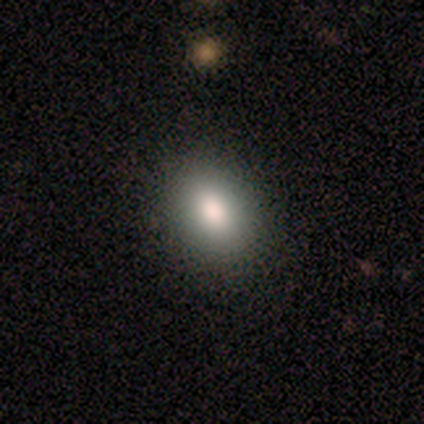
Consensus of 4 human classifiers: A smooth galaxy with no disk features (100%) that is round (50%, tied with in between). Merging: none (100%).